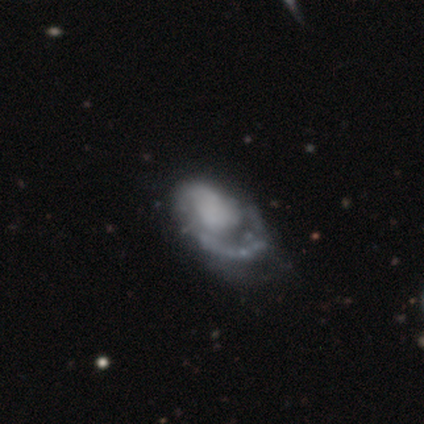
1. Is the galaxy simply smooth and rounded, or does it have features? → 68% featured or disk, 28% smooth, 5% star or artifact.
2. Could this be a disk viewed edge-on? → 100% no, 0% yes.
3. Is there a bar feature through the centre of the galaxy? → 85% no, 11% weak, 4% strong.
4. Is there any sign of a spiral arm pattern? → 74% yes, 26% no.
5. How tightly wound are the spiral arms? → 60% medium, 20% tight, 20% loose.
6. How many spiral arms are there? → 80% 1, 10% 2, 10% can't tell, 0% 3, 0% 4, 0% more than 4.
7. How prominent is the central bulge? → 78% none, 11% moderate, 7% large, 4% small, 0% dominant.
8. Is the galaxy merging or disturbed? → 39% major disturbance, 21% none, 13% minor disturbance, 0% merger.